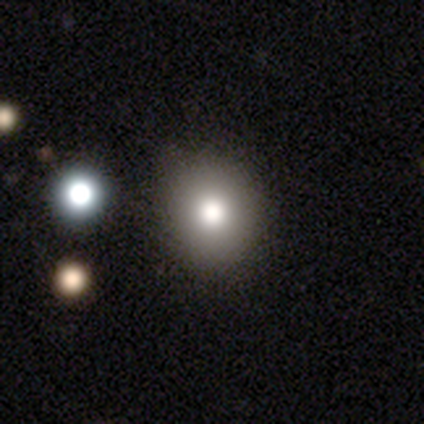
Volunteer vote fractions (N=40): Smooth or featured? smooth (80%)
How rounded? round (81%)
Merging? none (86%)